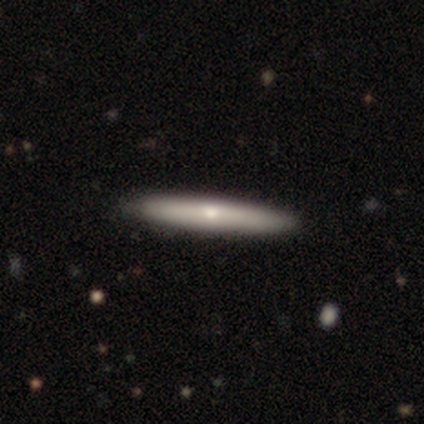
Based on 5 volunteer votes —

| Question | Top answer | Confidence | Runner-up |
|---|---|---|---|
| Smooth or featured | smooth | 60% | featured or disk (40%) |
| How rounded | cigar-shaped | 100% | — |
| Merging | none | 80% | merger (20%) |